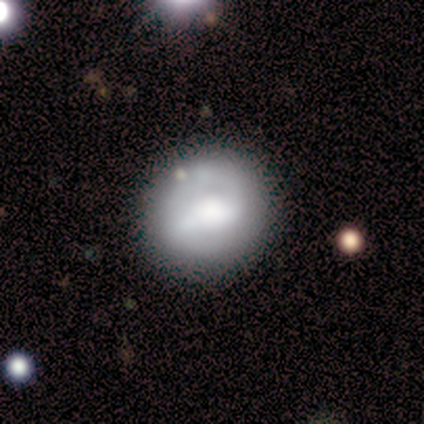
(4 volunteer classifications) smooth 50% (tied), featured or disk 50% (tied), star or artifact 0%. Down the decision tree: how rounded — round (100%); merging — none (100%).